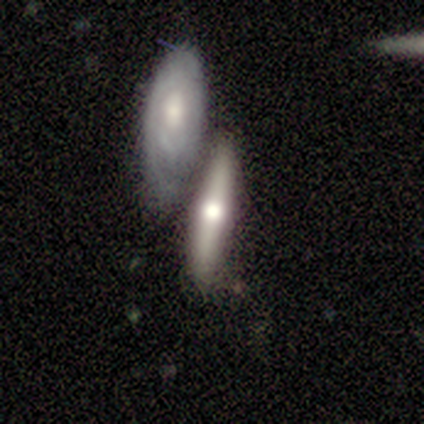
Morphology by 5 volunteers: Smooth or featured: smooth — 80% (featured or disk — 20%)
How rounded: in between — 50% (tied with cigar-shaped — 50%)
Merging: none — 60% (minor disturbance — 20%)